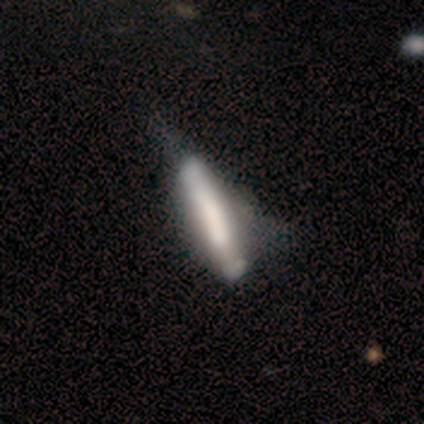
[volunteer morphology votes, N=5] Smooth or featured? smooth (40%, tied with star or artifact)
How rounded? in between (50%, tied with cigar-shaped)
Merging? minor disturbance (67%)